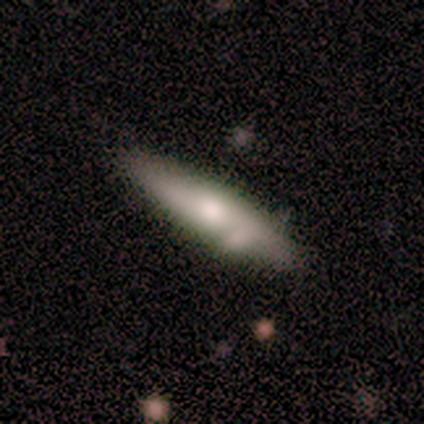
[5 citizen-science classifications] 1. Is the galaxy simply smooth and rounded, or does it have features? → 60% featured or disk, 20% smooth, 20% star or artifact.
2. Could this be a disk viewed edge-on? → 100% yes, 0% no.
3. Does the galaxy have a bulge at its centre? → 67% rounded, 33% boxy, 0% none.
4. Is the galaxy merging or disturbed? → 50% none (tied), 50% merger (tied), 0% minor disturbance, 0% major disturbance.